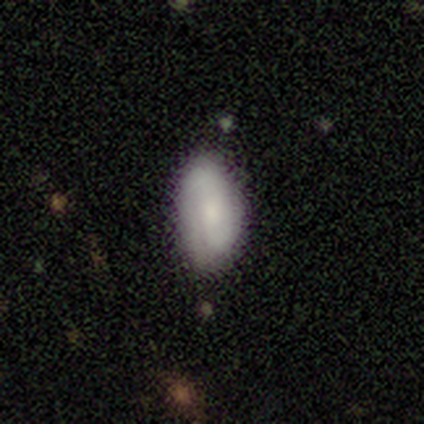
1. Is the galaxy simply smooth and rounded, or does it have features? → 68% smooth, 18% featured or disk, 13% star or artifact.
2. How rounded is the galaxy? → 92% in between, 4% round, 4% cigar-shaped.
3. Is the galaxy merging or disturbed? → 64% none, 33% minor disturbance, 3% major disturbance, 0% merger.